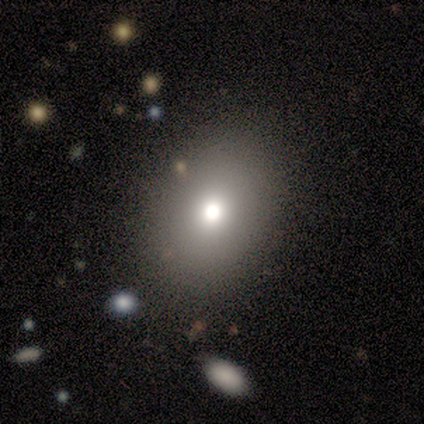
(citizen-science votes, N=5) Overall: smooth (60%; featured or disk 40%). How rounded: round (67%; in between 33%). Merging: none (60%; minor disturbance 40%).